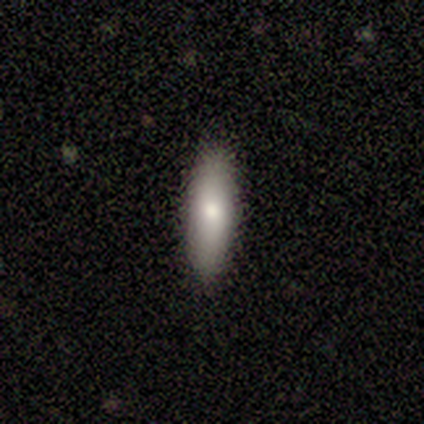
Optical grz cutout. It shows a smooth galaxy with no disk features (100%) that is cigar-shaped (80%). Merging: none (100%).